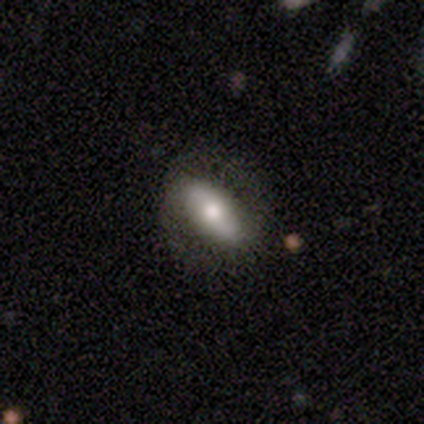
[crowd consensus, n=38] Overall: smooth (68%). How rounded: in between (81%). Merging: none (80%).